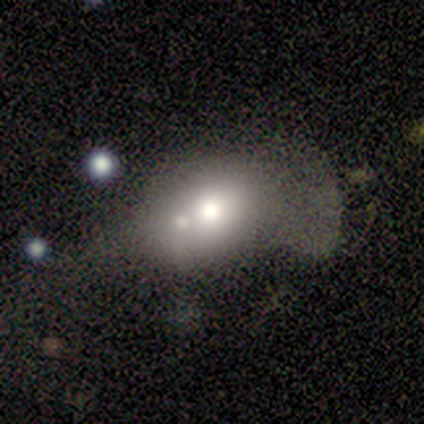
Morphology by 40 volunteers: Volunteers were most divided on "how rounded": round: 56%, in between: 44%, cigar-shaped: 0%. Remaining: smooth or featured — smooth (68%); merging — merger (46%).